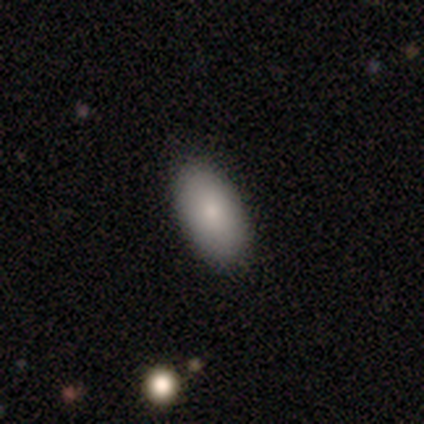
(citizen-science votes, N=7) Smooth or featured?
  - smooth: 57% *
  - featured or disk: 29%
  - star or artifact: 14%
How rounded?
  - in between: 75% *
  - cigar-shaped: 25%
  - round: 0%
Merging?
  - none: 83% *
  - merger: 17%
  - minor disturbance: 0%
  - major disturbance: 0%